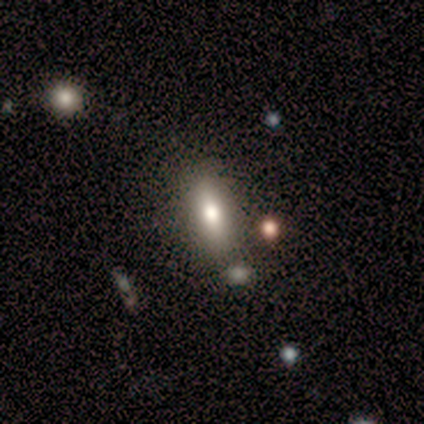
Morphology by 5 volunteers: This appears to be a smooth galaxy with no disk features (60%) that is in between round and cigar-shaped (67%). Merging: none (100%).